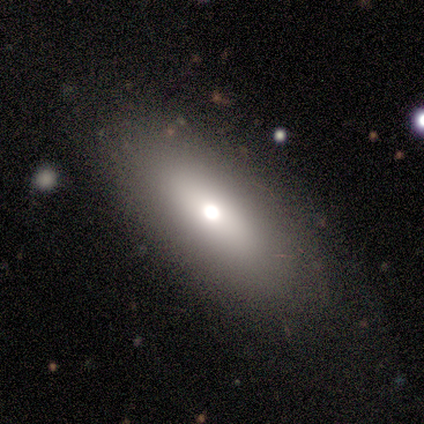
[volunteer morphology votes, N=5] Q: Smooth or featured?
A: smooth (60%); runner-up: featured or disk (20%)
Q: How rounded?
A: in between (100%)
Q: Merging?
A: none (75%); runner-up: minor disturbance (25%)